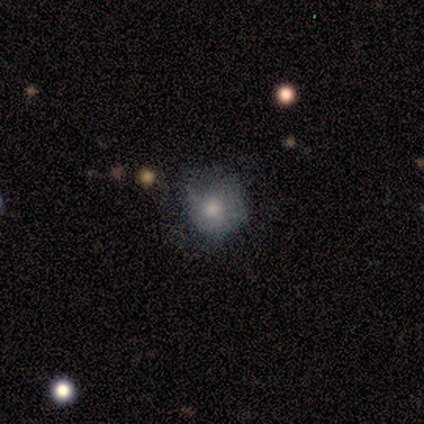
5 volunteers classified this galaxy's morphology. This appears to be a smooth galaxy with no disk features (80%) that is round (50%, tied with in between). Merging: none (60%).